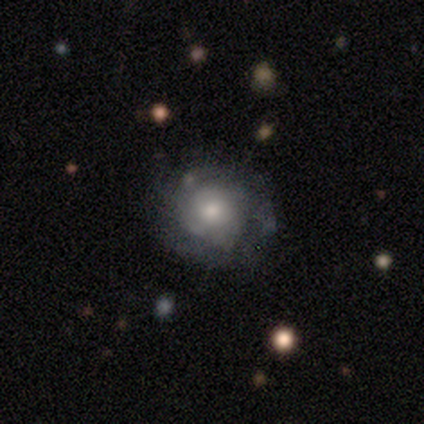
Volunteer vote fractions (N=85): A featured or disk galaxy (53%) with no bar (74%), tight (73%) spiral arms (71%) and a moderate central bulge (64%). Merging: none (71%).